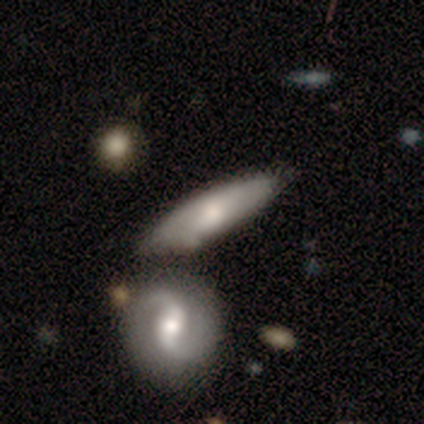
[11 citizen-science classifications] This is likely a featured or disk galaxy (73%). It is likely not viewed edge-on (62%). Bar: clearly no (80%). Spiral arm pattern: clearly yes (80%). Spiral arm count: likely 2 (75%). Spiral winding: possibly tight (50%). Central bulge: likely small (60%). Merging: likely none (64%).